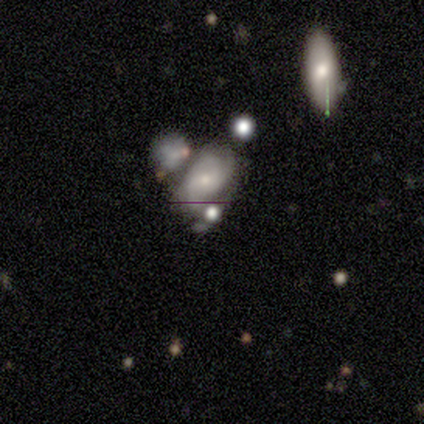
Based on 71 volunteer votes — Q: Smooth or featured?
A: featured or disk (62%); runner-up: smooth (25%)
Q: Edge-on disk?
A: no (100%)
Q: Bar?
A: no (61%); runner-up: weak (36%)
Q: Spiral arms?
A: yes (73%); runner-up: no (27%)
Q: Spiral winding?
A: medium (62%); runner-up: loose (25%)
Q: Spiral arm count?
A: 3 (44%); runner-up: 2 (41%)
Q: Bulge size?
A: small (61%); runner-up: moderate (32%)
Q: Merging?
A: merger (40%); runner-up: none (31%)